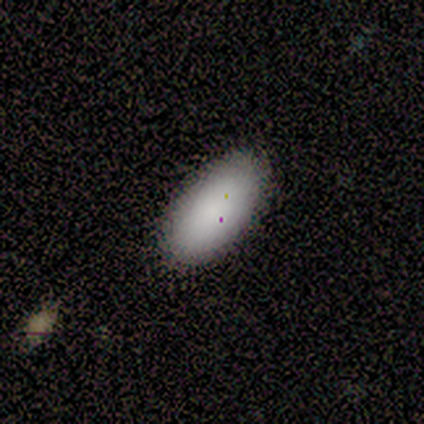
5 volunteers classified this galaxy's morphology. Q: Smooth or featured?
A: smooth (80%); runner-up: star or artifact (20%)
Q: How rounded?
A: in between (100%)
Q: Merging?
A: none (75%); runner-up: minor disturbance (25%)